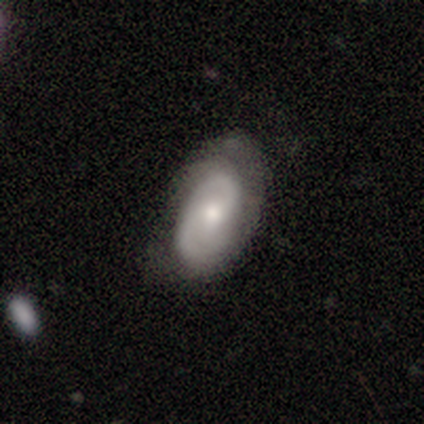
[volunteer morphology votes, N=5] Smooth or featured: smooth — 40% (tied with featured or disk — 40%)
How rounded: in between — 100%
Merging: none — 50% (minor disturbance — 25%)